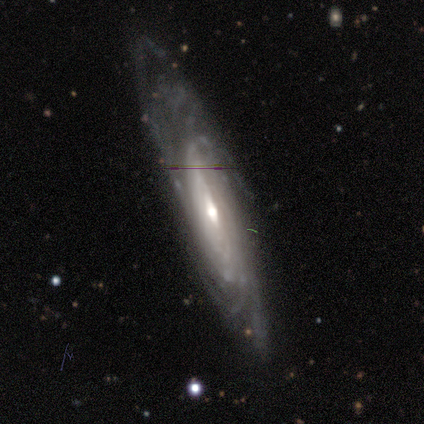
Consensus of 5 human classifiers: smooth_or_featured: featured or disk (p=0.80) [alt: smooth p=0.20]
disk_edge_on: yes (p=0.75) [alt: no p=0.25]
edge_on_bulge: none (p=0.67) [alt: rounded p=0.33]
merging: none (p=0.80) [alt: major disturbance p=0.20]